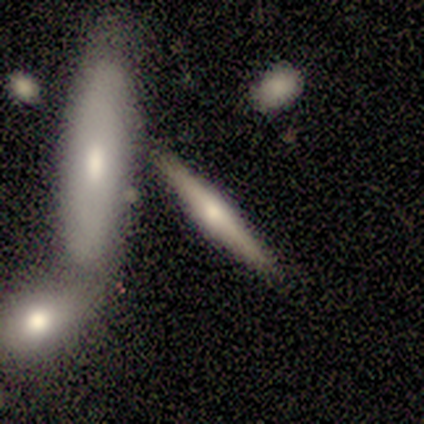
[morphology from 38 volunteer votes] Smooth or featured?
  - featured or disk: 58% *
  - smooth: 39%
  - star or artifact: 3%
Edge-on disk?
  - yes: 86% *
  - no: 14%
Edge-on bulge?
  - rounded: 74% *
  - boxy: 21%
  - none: 5%
Merging?
  - none: 59% *
  - merger: 27%
  - major disturbance: 8%
  - minor disturbance: 5%